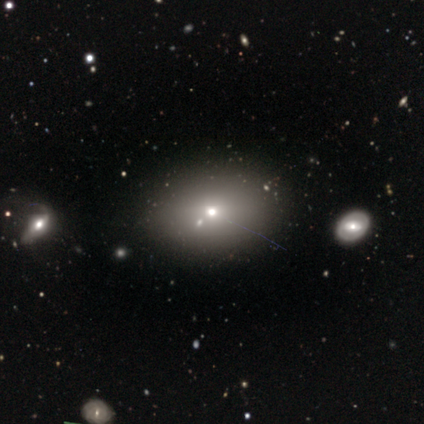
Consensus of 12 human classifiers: Overall: smooth (75%). How rounded: in between (78%). Merging: none (75%).